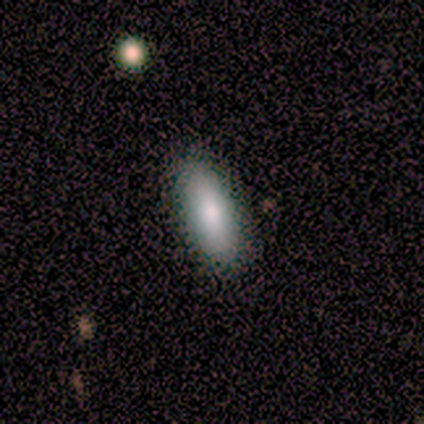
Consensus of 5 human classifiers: A smooth galaxy with no disk features (80%) that is in between round and cigar-shaped (75%). Merging: none (100%).